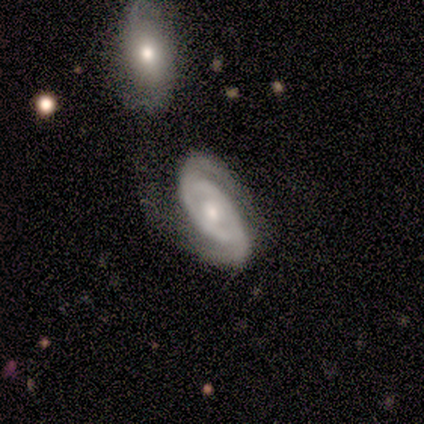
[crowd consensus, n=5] featured or disk 100%, smooth 0%, star or artifact 0%. Down the decision tree: edge-on disk — no (100%); bar — weak (40%, tied with no); spiral arms — yes (100%); spiral arm count — 2 (100%); spiral winding — tight (60%); bulge size — moderate (80%); merging — none (80%).